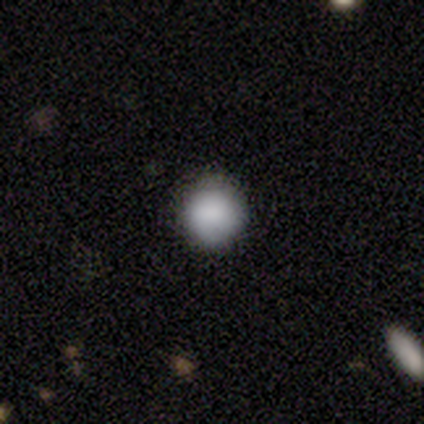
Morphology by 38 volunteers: Smooth or featured? smooth (82%)
How rounded? round (90%)
Merging? none (86%)